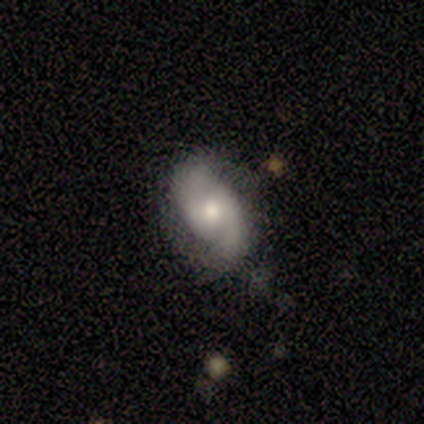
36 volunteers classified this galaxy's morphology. This appears to be a featured or disk galaxy (75%) with a weak bar (63%), 2 (85%) medium (48%) spiral arms (100%) and a moderate central bulge (70%). Merging: none (70%).